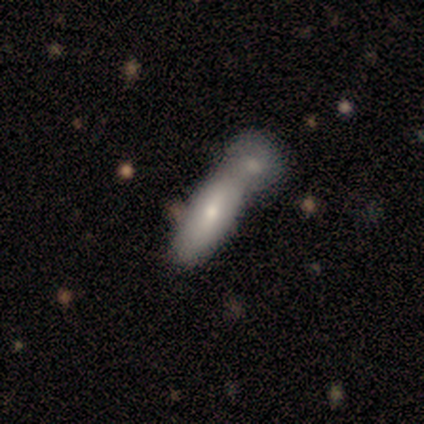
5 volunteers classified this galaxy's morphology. Q: Smooth or featured?
A: smooth (100%)
Q: How rounded?
A: in between (60%); runner-up: round (20%)
Q: Merging?
A: merger (60%); runner-up: none (40%)